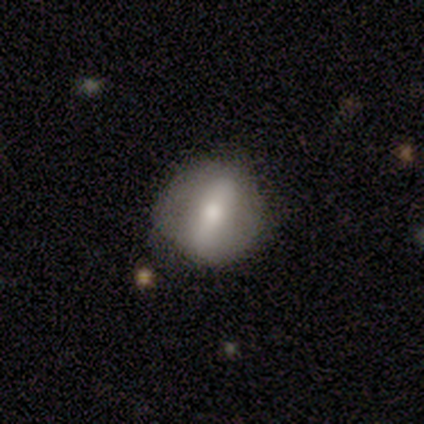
smooth-or-featured: smooth: 43% (tied) | featured or disk: 43% (tied) | star or artifact: 14%
  how-rounded: round: 50% (tied) | in between: 50% (tied) | cigar-shaped: 0%
  merging: none: 67% | minor disturbance: 25% | merger: 8% | major disturbance: 0%